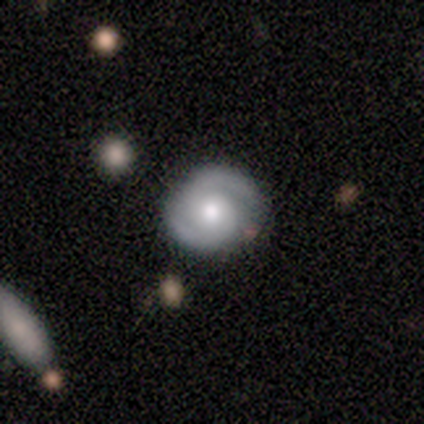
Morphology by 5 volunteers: Smooth or featured: featured or disk — 80% (star or artifact — 20%)
Edge-on disk: no — 100%
Bar: no — 100%
Spiral arms: yes — 100%
Spiral winding: tight — 50% (tied with medium — 50%)
Spiral arm count: 2 — 100%
Bulge size: moderate — 75% (small — 25%)
Merging: none — 100%